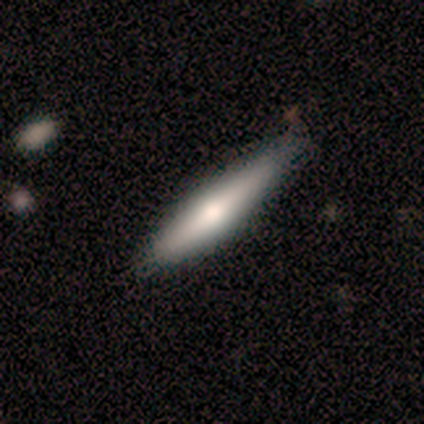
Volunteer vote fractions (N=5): Overall: smooth (60%; featured or disk 40%). How rounded: cigar-shaped (67%; in between 33%). Merging: none (80%).